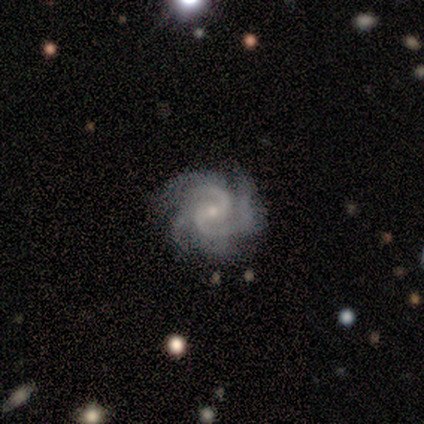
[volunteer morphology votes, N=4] smooth_or_featured: featured or disk (p=1.00)
disk_edge_on: no (p=1.00)
bar: no (p=0.50) [alt: strong p=0.25]
has_spiral_arms: yes (p=1.00)
spiral_winding: tight (p=0.75) [alt: medium p=0.25]
spiral_arm_count: 3 (p=0.50) [alt: 2 p=0.25]
bulge_size: small (p=1.00)
merging: none (p=1.00)